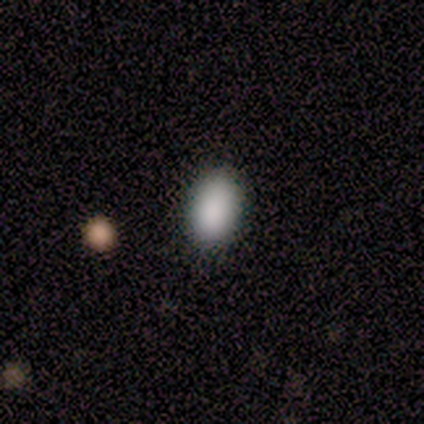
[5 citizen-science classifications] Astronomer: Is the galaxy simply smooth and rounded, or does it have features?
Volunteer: smooth — 100%.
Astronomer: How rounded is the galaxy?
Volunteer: in between — 80%.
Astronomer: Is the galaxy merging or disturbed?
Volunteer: none — 80%.